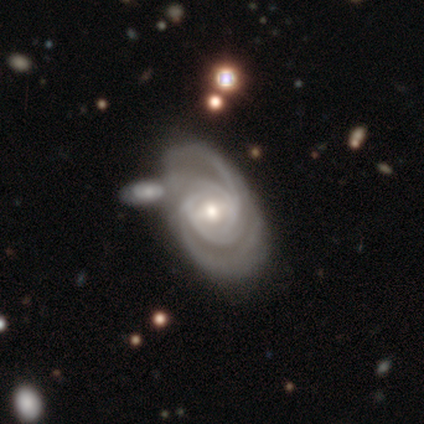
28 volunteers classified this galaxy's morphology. Q: Smooth or featured?
A: featured or disk (96%); runner-up: smooth (4%)
Q: Edge-on disk?
A: no (96%); runner-up: yes (4%)
Q: Bar?
A: weak (62%); runner-up: no (35%)
Q: Spiral arms?
A: yes (100%)
Q: Spiral winding?
A: tight (50%); runner-up: medium (46%)
Q: Spiral arm count?
A: 2 (46%); runner-up: 4 (31%)
Q: Bulge size?
A: moderate (62%); runner-up: small (35%)
Q: Merging?
A: merger (50%); runner-up: none (7%)